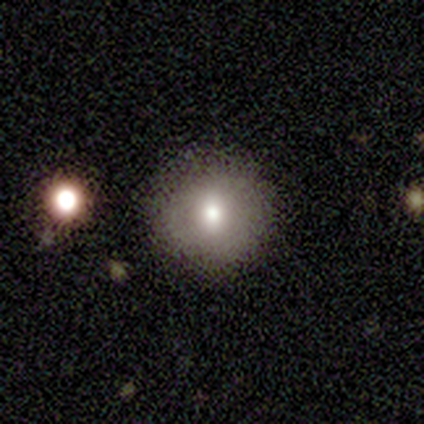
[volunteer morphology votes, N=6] smooth_or_featured: smooth (p=0.50) [alt: featured or disk p=0.33]
how_rounded: round (p=1.00)
merging: none (p=1.00)